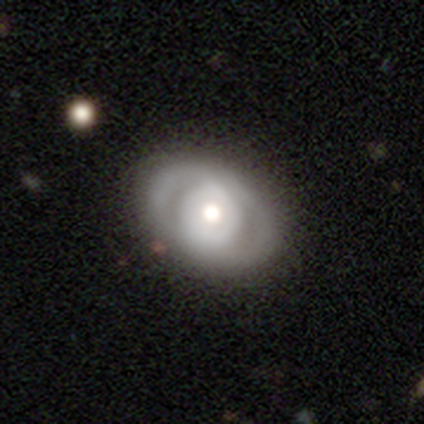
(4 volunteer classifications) featured or disk 75%, smooth 25%, star or artifact 0%. Down the decision tree: edge-on disk — no (100%); bar — no (100%); spiral arms — yes (67%); spiral arm count — 2 (50%, tied with can't tell); spiral winding — tight (50%, tied with medium); bulge size — moderate (100%); merging — none (50%, tied with minor disturbance).